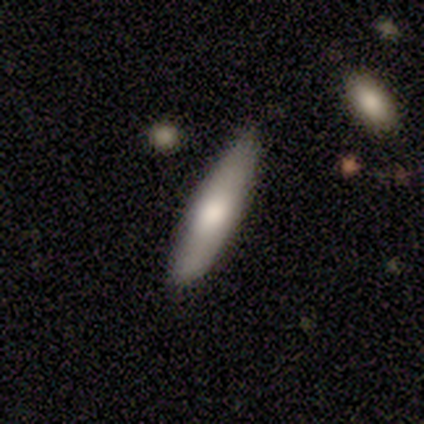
Smooth or featured: smooth — 64% (featured or disk — 31%)
How rounded: cigar-shaped — 84% (in between — 12%)
Merging: none — 86% (minor disturbance — 5%)